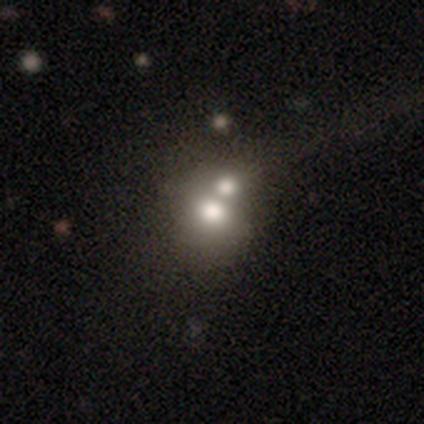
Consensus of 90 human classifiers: smooth 56%, featured or disk 26%, star or artifact 19%. Down the decision tree: how rounded — round (60%); merging — merger (71%).